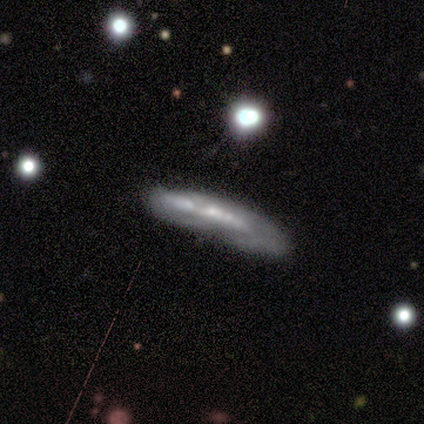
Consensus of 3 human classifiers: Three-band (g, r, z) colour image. It shows a featured or disk galaxy (67%) viewed edge-on (50%, tied with no) with a boxy central bulge (100%). Merging: none (33%, tied with major disturbance and merger).